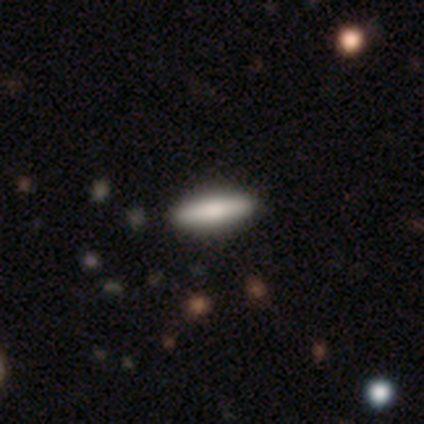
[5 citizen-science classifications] smooth_or_featured: smooth (p=0.60) [alt: featured or disk p=0.40]
how_rounded: cigar-shaped (p=1.00)
merging: none (p=1.00)